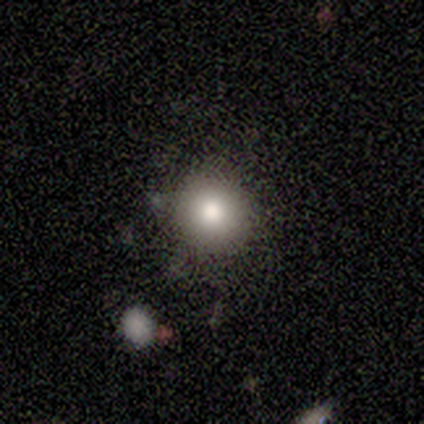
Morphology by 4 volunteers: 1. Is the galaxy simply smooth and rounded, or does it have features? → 100% smooth, 0% featured or disk, 0% star or artifact.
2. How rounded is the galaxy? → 100% round, 0% in between, 0% cigar-shaped.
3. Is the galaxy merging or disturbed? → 75% none, 25% minor disturbance, 0% major disturbance, 0% merger.